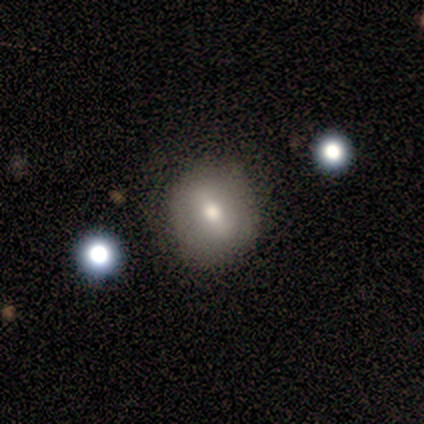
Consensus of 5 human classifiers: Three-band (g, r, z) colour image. It shows a smooth galaxy with no disk features (60%) that is round (100%). Merging: minor disturbance (50%).